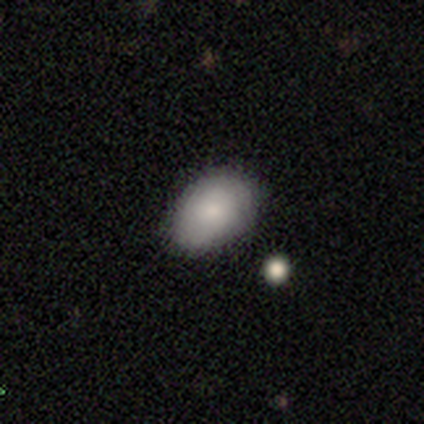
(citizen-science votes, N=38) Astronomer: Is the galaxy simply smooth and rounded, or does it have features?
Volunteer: smooth — 84%.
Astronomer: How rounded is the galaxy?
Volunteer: in between — 91%.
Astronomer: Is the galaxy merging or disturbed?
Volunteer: none — 60%.